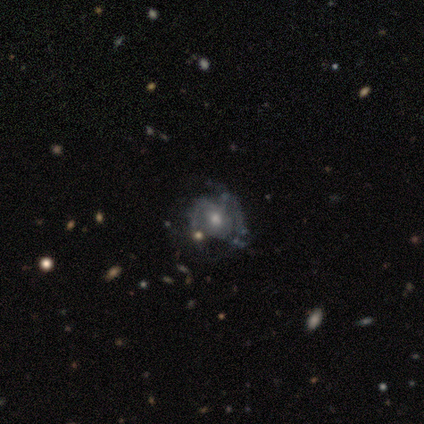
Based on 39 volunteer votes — Volunteers were most divided on "merging": none: 35%, major disturbance: 32%, minor disturbance: 24%, merger: 8%. Remaining: edge-on disk — no (100%); smooth or featured — featured or disk (82%); bar — no (78%); bulge size — moderate (72%); spiral arms — yes (59%); spiral winding — tight (53%); spiral arm count — 2 (47%).